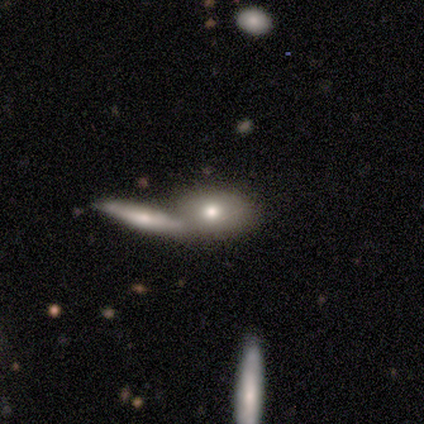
Morphology: type=smooth (80%); roundness=in between (100%); merging=merger (80%).